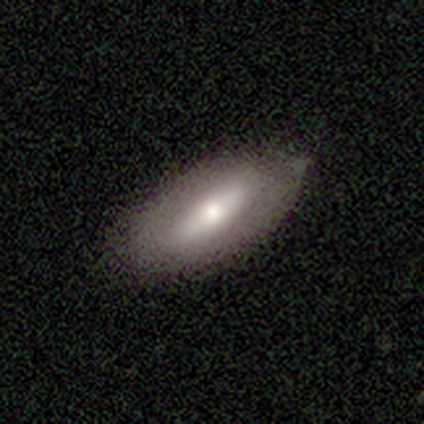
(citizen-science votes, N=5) Smooth or featured: smooth — 60% (featured or disk — 40%)
How rounded: in between — 67% (cigar-shaped — 33%)
Merging: none — 100%